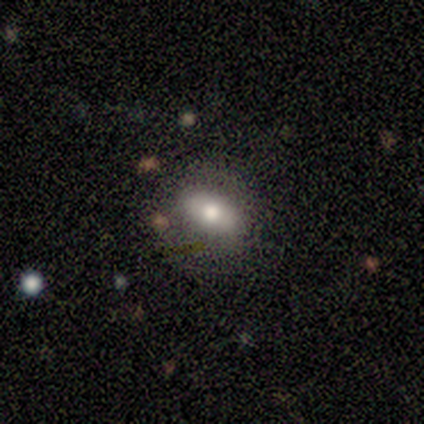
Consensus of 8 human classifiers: smooth 75%, featured or disk 25%, star or artifact 0%. Down the decision tree: how rounded — in between (100%); merging — none (100%).